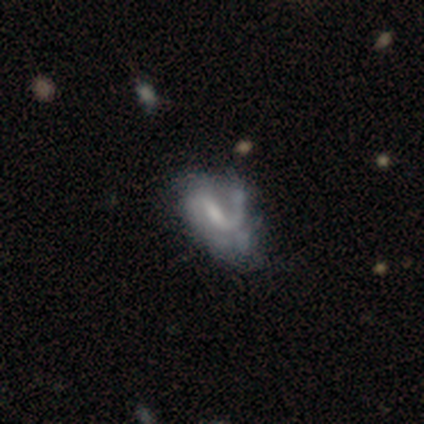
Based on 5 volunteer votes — Q: Smooth or featured?
A: featured or disk (100%)
Q: Edge-on disk?
A: no (100%)
Q: Bar?
A: weak (60%); runner-up: no (40%)
Q: Spiral arms?
A: yes (80%); runner-up: no (20%)
Q: Spiral winding?
A: loose (50%); runner-up: tight (25%)
Q: Spiral arm count?
A: 1 (100%)
Q: Bulge size?
A: small (40%); tied with: none (40%)
Q: Merging?
A: minor disturbance (40%); tied with: merger (40%)